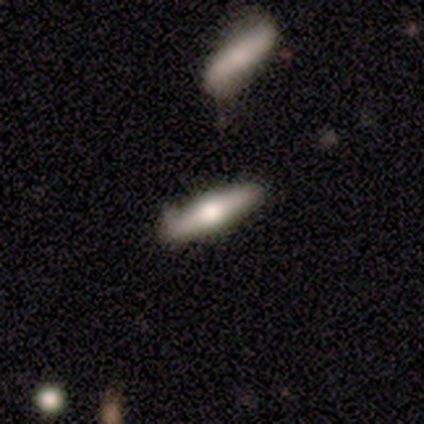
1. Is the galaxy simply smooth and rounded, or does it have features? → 51% smooth, 46% featured or disk, 3% star or artifact.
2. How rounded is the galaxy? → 85% cigar-shaped, 15% in between, 0% round.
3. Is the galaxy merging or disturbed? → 55% none, 11% minor disturbance, 11% merger, 0% major disturbance.